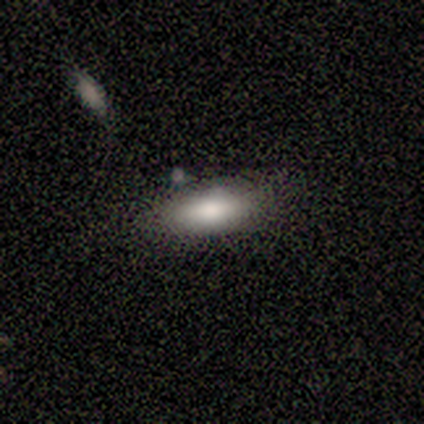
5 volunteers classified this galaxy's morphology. This appears to be a smooth galaxy with no disk features (80%) that is in between round and cigar-shaped (50%, tied with cigar-shaped). Merging: none (75%).